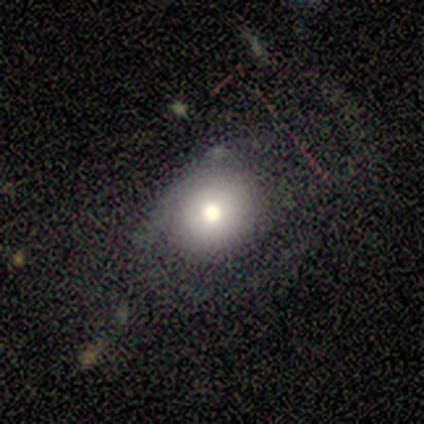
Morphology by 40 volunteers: This appears to be a smooth galaxy with no disk features (72%) that is round (72%). Merging: none (39%).